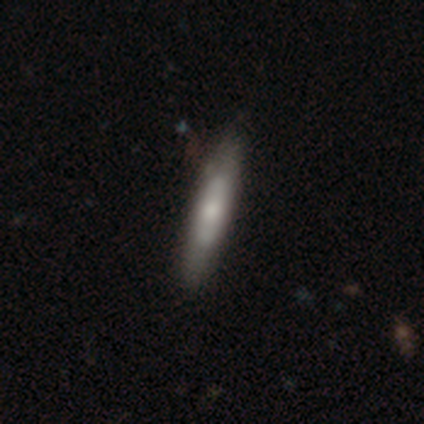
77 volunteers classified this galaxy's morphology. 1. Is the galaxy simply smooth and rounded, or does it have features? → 49% smooth, 48% featured or disk, 3% star or artifact.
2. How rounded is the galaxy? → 84% cigar-shaped, 13% in between, 3% round.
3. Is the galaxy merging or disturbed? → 40% none, 9% minor disturbance, 1% major disturbance, 1% merger.